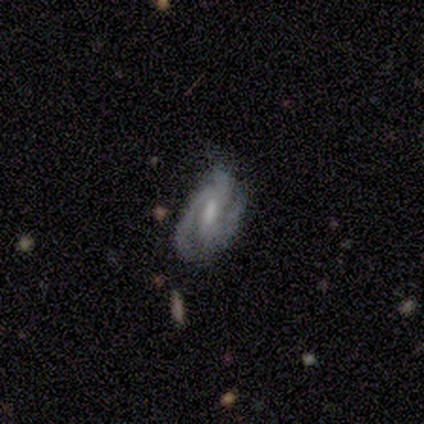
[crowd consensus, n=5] Volunteers were most divided on "bar": weak: 50%, strong: 25%, no: 25%. More confident: edge-on disk — no (100%); spiral arms — yes (100%); smooth or featured — featured or disk (80%); spiral arm count — 2 (75%); merging — none (60%); spiral winding — tight (50%); bulge size — small (50%).